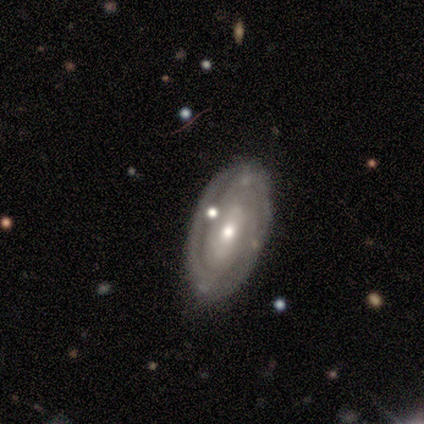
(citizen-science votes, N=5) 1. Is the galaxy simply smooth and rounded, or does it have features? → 80% featured or disk, 20% smooth, 0% star or artifact.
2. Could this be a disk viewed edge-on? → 100% no, 0% yes.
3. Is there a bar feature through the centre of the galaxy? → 100% no, 0% strong, 0% weak.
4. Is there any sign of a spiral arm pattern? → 75% yes, 25% no.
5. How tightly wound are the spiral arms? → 67% medium, 33% tight, 0% loose.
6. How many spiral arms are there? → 33% 2 (tied), 33% 3 (tied), 33% can't tell (tied), 0% 1, 0% 4, 0% more than 4.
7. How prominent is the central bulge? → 75% moderate, 25% small, 0% dominant, 0% large, 0% none.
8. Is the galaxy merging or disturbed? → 80% none, 20% minor disturbance, 0% major disturbance, 0% merger.